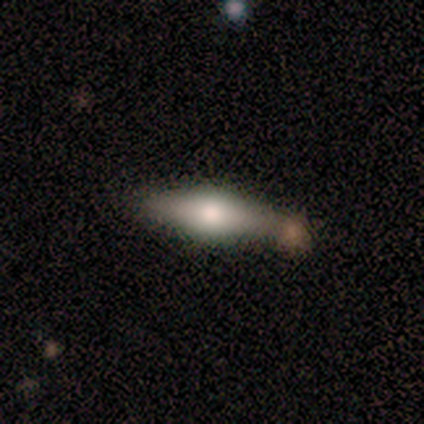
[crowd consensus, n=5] Smooth or featured? 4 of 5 (80%) said smooth. How rounded? 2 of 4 (50%, tied with cigar-shaped) said in between. Merging? 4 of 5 (80%) said none.